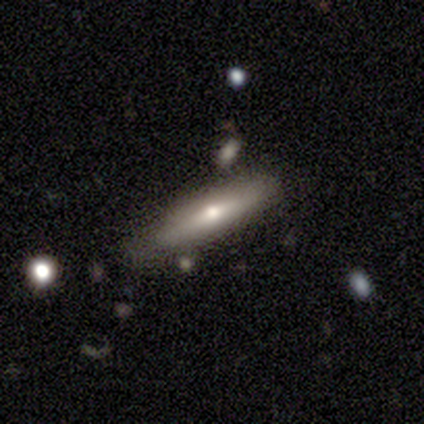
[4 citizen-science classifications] A featured or disk galaxy (75%) viewed edge-on (67%) with a rounded central bulge (100%). Merging: none (50%, tied with minor disturbance).